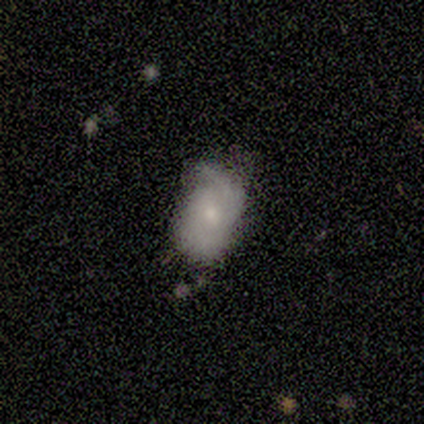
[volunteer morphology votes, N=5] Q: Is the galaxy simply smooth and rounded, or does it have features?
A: smooth — 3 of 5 (60%).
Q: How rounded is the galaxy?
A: in between — 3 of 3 (100%).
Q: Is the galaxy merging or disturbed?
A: minor disturbance — 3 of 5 (60%).